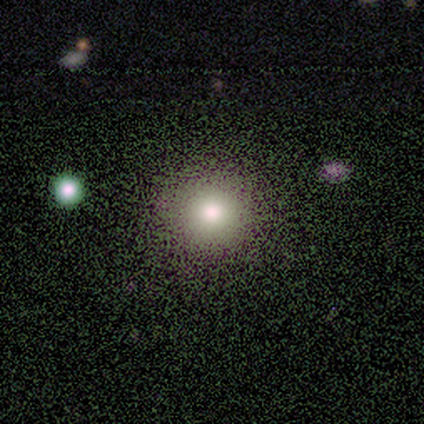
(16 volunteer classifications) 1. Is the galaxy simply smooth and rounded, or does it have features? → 69% smooth, 25% featured or disk, 6% star or artifact.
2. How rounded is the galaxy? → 100% round, 0% in between, 0% cigar-shaped.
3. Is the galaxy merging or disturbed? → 87% none, 13% minor disturbance, 0% major disturbance, 0% merger.